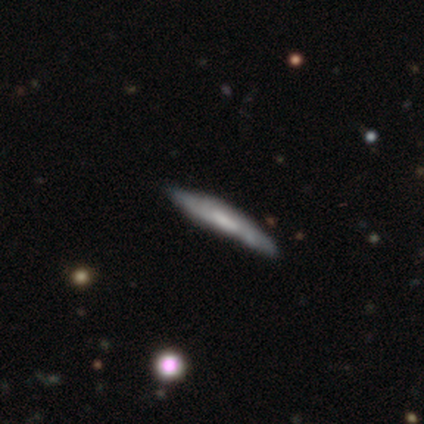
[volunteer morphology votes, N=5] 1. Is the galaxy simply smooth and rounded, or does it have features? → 80% smooth, 20% featured or disk, 0% star or artifact.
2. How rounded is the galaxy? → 100% cigar-shaped, 0% round, 0% in between.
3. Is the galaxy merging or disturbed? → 80% none, 20% major disturbance, 0% minor disturbance, 0% merger.